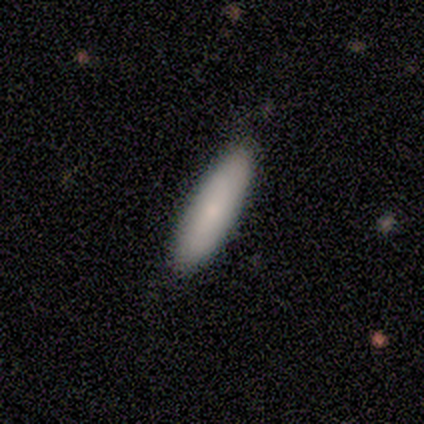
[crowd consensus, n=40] smooth_or_featured: smooth (p=0.75) [alt: featured or disk p=0.20]
how_rounded: cigar-shaped (p=0.60) [alt: in between p=0.40]
merging: none (p=0.58) [alt: minor disturbance p=0.05]